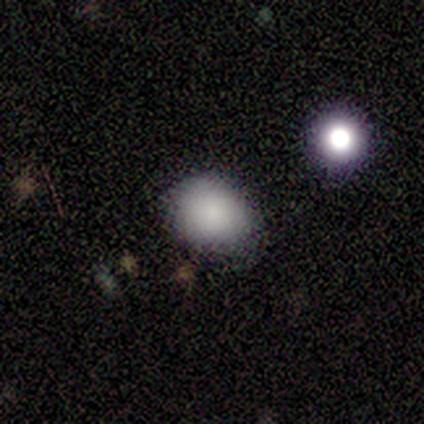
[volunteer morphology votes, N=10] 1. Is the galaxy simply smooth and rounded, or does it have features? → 80% smooth, 20% star or artifact, 0% featured or disk.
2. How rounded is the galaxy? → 62% round, 38% in between, 0% cigar-shaped.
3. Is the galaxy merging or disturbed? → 100% none, 0% minor disturbance, 0% major disturbance, 0% merger.